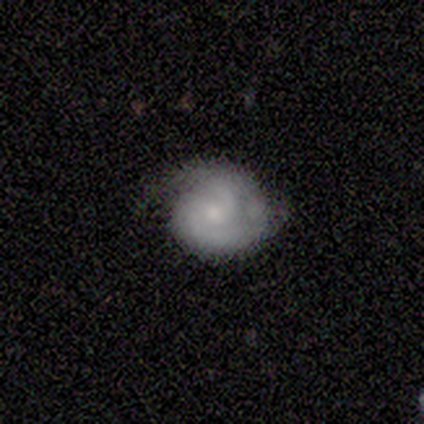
Smooth or featured? featured or disk (71%)
Edge-on disk? no (100%)
Bar? no (60%)
Spiral arms? yes (100%)
Spiral winding? tight (60%)
Spiral arm count? 2 (80%)
Bulge size? small (80%)
Merging? none (50%, tied with minor disturbance)